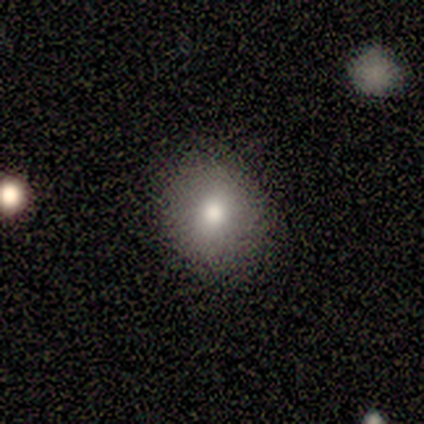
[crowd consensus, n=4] A smooth galaxy with no disk features (100%) that is round (75%).

Vote fractions:
- Smooth or featured? smooth: 100% / featured or disk: 0% / star or artifact: 0%
- How rounded? round: 75% / in between: 25% / cigar-shaped: 0%
- Merging? none: 75% / minor disturbance: 25% / major disturbance: 0% / merger: 0%